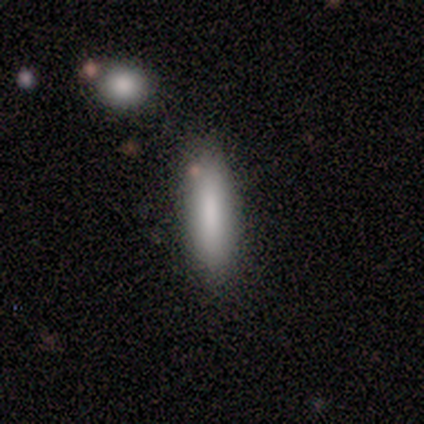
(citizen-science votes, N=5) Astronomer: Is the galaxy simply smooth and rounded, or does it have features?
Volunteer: smooth — 80%.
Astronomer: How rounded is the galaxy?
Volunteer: in between — 50%, tied with cigar-shaped at 50%.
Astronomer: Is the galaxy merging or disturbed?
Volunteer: none — 80%.